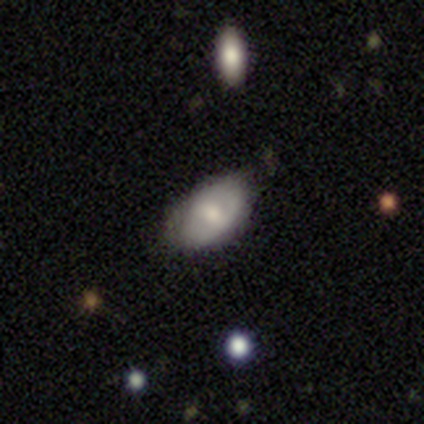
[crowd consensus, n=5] A smooth galaxy with no disk features (60%) that is in between round and cigar-shaped (100%). Merging: none (80%).